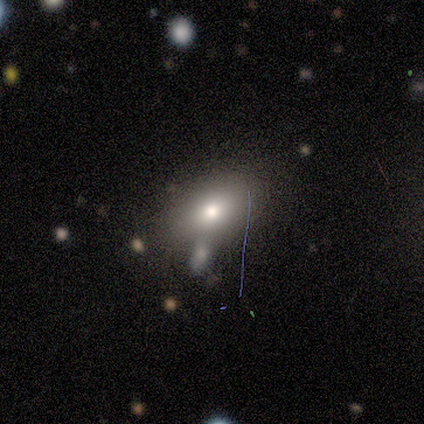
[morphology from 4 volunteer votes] Volunteers were most divided on "merging" (3-way tie): none: 33%, major disturbance: 33%, merger: 33%, minor disturbance: 0%. More confident: how rounded — in between (100%); smooth or featured — smooth (75%).